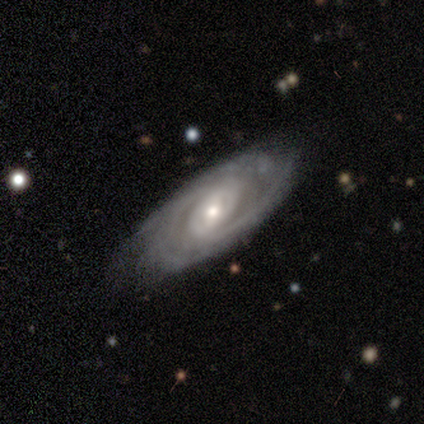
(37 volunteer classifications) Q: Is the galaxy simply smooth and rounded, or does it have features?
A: featured or disk — 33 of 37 (89%).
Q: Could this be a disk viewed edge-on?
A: no — 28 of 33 (85%).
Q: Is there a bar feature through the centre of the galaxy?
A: no — 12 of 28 (43%).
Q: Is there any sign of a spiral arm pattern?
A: yes — 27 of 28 (96%).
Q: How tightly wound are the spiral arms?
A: medium — 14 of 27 (52%).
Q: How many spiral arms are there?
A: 2 — 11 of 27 (41%).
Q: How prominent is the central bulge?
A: small — 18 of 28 (64%).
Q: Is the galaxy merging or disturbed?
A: none — 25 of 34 (74%).